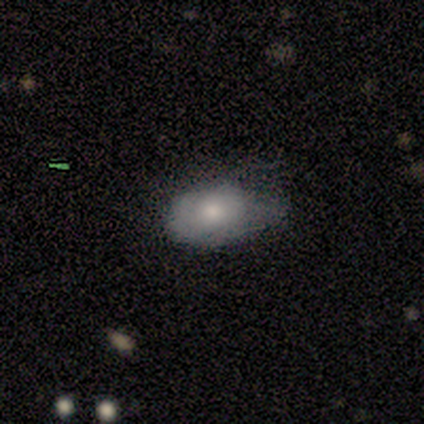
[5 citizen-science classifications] Volunteers were most divided on "how rounded": in between: 75%, round: 25%, cigar-shaped: 0%. More confident: smooth or featured — smooth (80%); merging — none (75%).